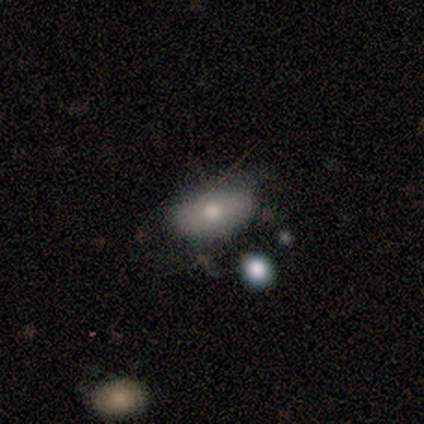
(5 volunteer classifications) smooth-or-featured: smooth: 80% | featured or disk: 20% | star or artifact: 0%
  how-rounded: round: 50% (tied) | in between: 50% (tied) | cigar-shaped: 0%
  merging: none: 60% | minor disturbance: 40% | major disturbance: 0% | merger: 0%